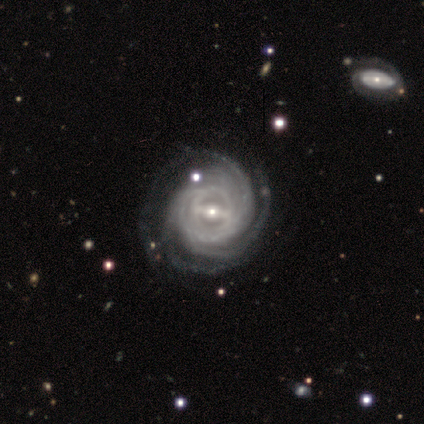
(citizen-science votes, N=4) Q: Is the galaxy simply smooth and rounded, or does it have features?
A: featured or disk — 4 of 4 (100%).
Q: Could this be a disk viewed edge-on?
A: no — 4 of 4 (100%).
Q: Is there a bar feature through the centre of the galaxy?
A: strong — 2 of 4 (50%).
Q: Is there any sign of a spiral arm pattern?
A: yes — 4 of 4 (100%).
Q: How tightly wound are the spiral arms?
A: tight — 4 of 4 (100%).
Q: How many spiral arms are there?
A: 3 — 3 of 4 (75%).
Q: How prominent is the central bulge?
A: small — 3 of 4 (75%).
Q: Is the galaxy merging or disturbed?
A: none — 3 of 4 (75%).